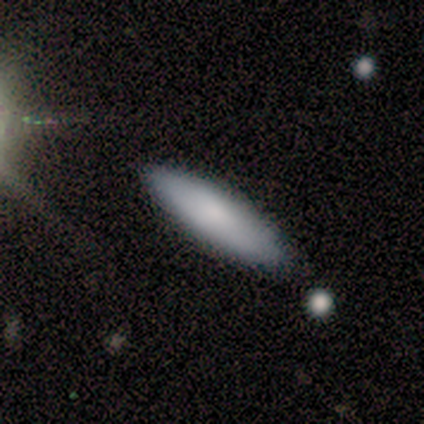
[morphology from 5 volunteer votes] smooth 60%, star or artifact 40%, featured or disk 0%. Down the decision tree: how rounded — in between (67%); merging — none (100%).